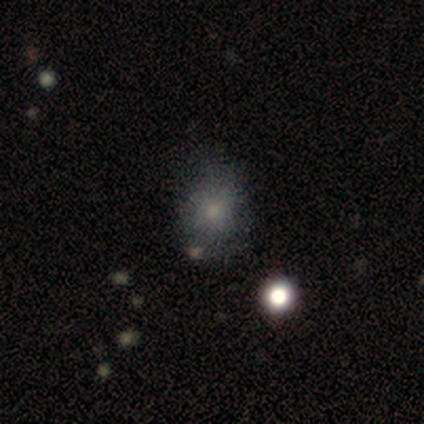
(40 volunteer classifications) A smooth galaxy with no disk features (70%) that is round (61%).

Vote fractions:
- Smooth or featured? smooth: 70% / featured or disk: 18% / star or artifact: 12%
- How rounded? round: 61% / in between: 39% / cigar-shaped: 0%
- Merging? none: 54% / minor disturbance: 20% / major disturbance: 17% / merger: 9%